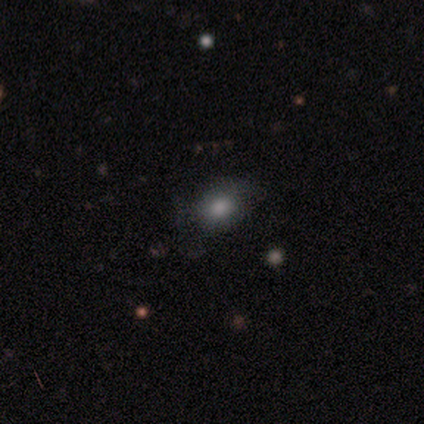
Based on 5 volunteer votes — Overall: smooth (80%). How rounded: in between (75%). Merging: none (80%).